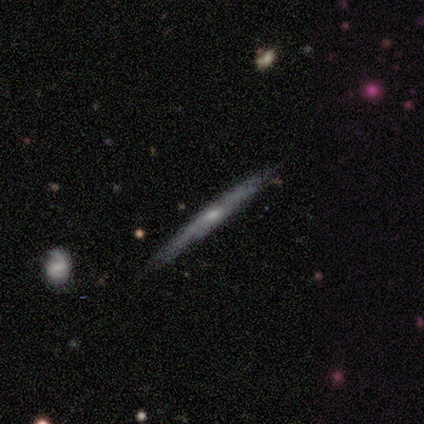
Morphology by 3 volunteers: Smooth or featured? 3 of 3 (100%) said featured or disk. Edge-on disk? 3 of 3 (100%) said yes. Edge-on bulge? 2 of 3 (67%) said rounded. Merging? 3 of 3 (100%) said none.